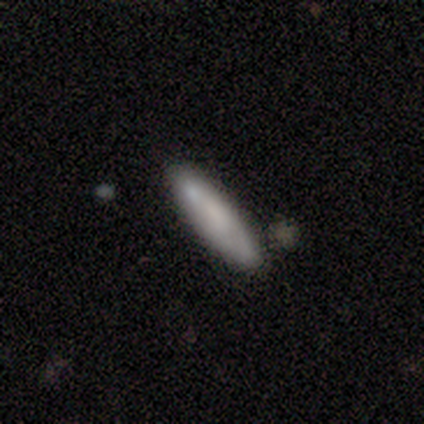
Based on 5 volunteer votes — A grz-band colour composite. It shows a smooth galaxy with no disk features (100%) that is cigar-shaped (60%). Merging: none (40%, tied with minor disturbance).